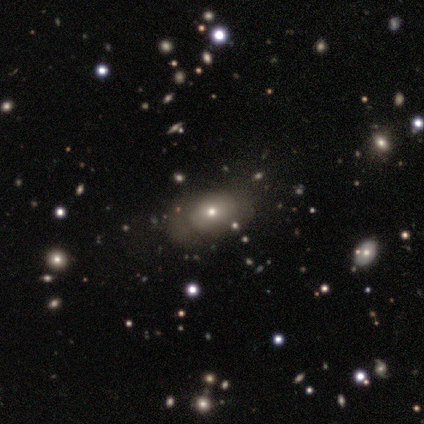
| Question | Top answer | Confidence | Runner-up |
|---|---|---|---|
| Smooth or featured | smooth | 60% | star or artifact (40%) |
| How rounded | in between | 67% | round (33%) |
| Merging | none | 33% | tied: minor disturbance (33%), major disturbance (33%) |